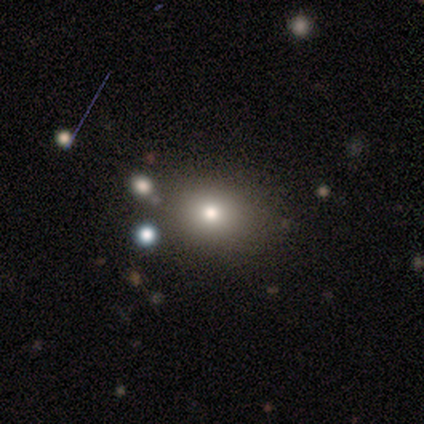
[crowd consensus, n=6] A smooth galaxy with no disk features (100%) that is round (67%).

Vote fractions:
- Smooth or featured? smooth: 100% / featured or disk: 0% / star or artifact: 0%
- How rounded? round: 67% / in between: 33% / cigar-shaped: 0%
- Merging? none: 100% / minor disturbance: 0% / major disturbance: 0% / merger: 0%